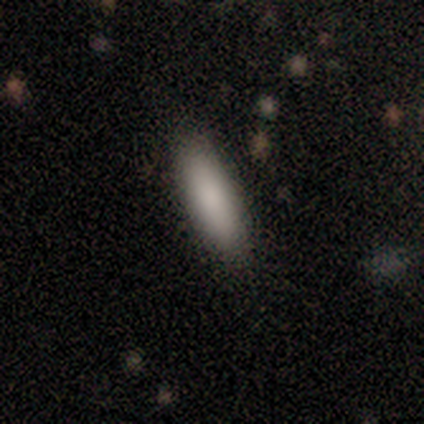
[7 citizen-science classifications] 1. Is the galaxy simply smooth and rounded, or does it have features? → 86% smooth, 14% star or artifact, 0% featured or disk.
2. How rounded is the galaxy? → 67% in between, 33% cigar-shaped, 0% round.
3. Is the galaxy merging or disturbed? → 83% none, 17% minor disturbance, 0% major disturbance, 0% merger.